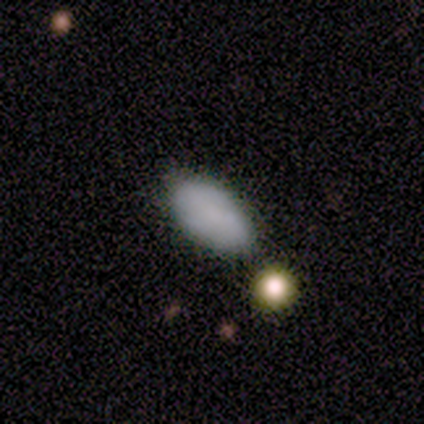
smooth_or_featured: smooth (p=0.89) [alt: star or artifact p=0.11]
how_rounded: in between (p=1.00)
merging: none (p=0.88) [alt: minor disturbance p=0.12]